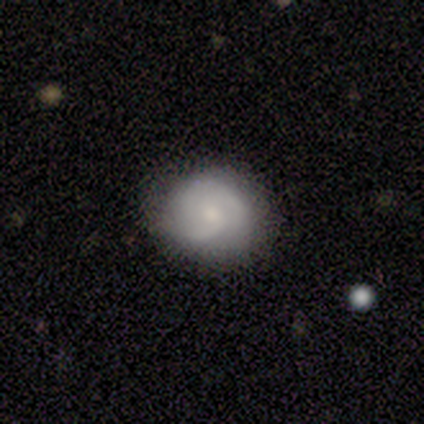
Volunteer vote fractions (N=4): smooth-or-featured: featured or disk: 50% | smooth: 25% | star or artifact: 25%
  disk-edge-on: no: 100% | yes: 0%
    bar: no: 100% | strong: 0% | weak: 0%
    has-spiral-arms: yes: 100% | no: 0%
      spiral-winding: tight: 50% (tied) | medium: 50% (tied) | loose: 0%
      spiral-arm-count: 1: 50% (tied) | 2: 50% (tied) | 3: 0% | 4: 0% | more than 4: 0% | can't tell: 0%
    bulge-size: small: 100% | dominant: 0% | large: 0% | moderate: 0% | none: 0%
  merging: none: 67% | minor disturbance: 33% | major disturbance: 0% | merger: 0%